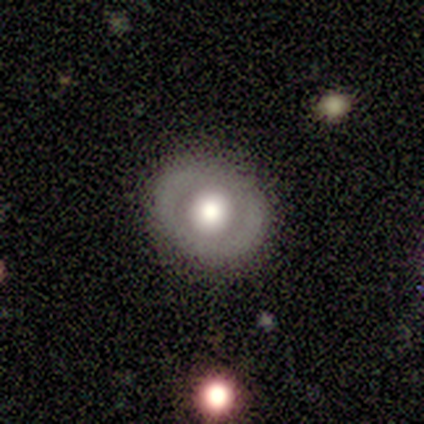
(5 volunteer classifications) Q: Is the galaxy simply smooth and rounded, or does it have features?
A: smooth — 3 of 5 (60%).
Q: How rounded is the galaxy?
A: in between — 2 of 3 (67%).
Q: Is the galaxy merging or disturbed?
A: none — 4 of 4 (100%).